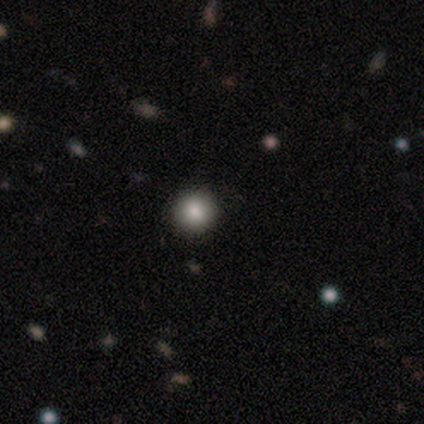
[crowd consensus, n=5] Q: Smooth or featured?
A: smooth (100%)
Q: How rounded?
A: round (80%); runner-up: in between (20%)
Q: Merging?
A: none (80%); runner-up: minor disturbance (20%)